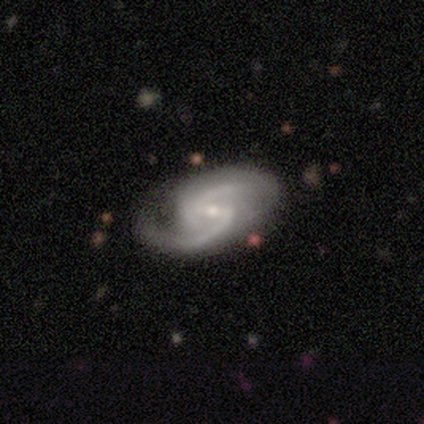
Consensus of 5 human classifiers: Overall: featured or disk (100%). Edge-on disk: no (100%). Bar: weak (60%; strong 40%). Spiral arms: yes (100%). Spiral arm count: 2 (100%). Spiral winding: medium (60%; loose 40%). Bulge size: small (60%; moderate 40%). Merging: none (80%).